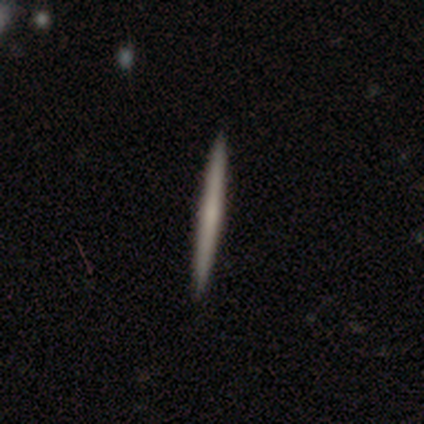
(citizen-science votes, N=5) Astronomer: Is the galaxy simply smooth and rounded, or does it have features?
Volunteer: smooth — 80%.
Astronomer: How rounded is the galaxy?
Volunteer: cigar-shaped — 100%.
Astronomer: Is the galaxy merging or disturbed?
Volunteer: none — 100%.